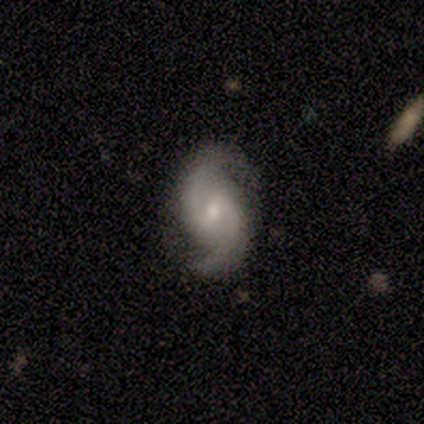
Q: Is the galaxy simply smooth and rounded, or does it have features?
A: featured or disk — 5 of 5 (100%).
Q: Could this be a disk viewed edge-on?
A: no — 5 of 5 (100%).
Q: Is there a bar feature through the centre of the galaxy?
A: weak — 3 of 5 (60%).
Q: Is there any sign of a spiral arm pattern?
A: yes — 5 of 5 (100%).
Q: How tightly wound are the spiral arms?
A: loose — 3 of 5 (60%).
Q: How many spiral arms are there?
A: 2 — 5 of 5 (100%).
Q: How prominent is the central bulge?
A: small — 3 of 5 (60%).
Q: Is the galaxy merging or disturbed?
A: none — 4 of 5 (80%).